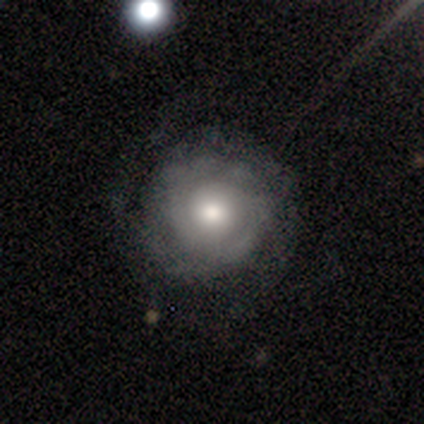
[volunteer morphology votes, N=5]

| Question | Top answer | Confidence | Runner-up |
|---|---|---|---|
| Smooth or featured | featured or disk | 80% | smooth (20%) |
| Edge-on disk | no | 100% | — |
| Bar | no | 75% | strong (25%) |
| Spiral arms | yes | 100% | — |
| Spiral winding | tight | 50% | medium (25%) |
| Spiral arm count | can't tell | 75% | 2 (25%) |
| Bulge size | moderate | 50% | dominant (25%) |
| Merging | none | 40% | tied: major disturbance (40%) |